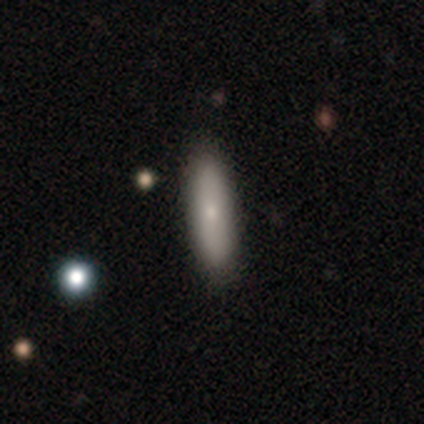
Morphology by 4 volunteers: Smooth or featured: smooth — 50% (tied with featured or disk — 50%)
How rounded: cigar-shaped — 100%
Merging: none — 100%